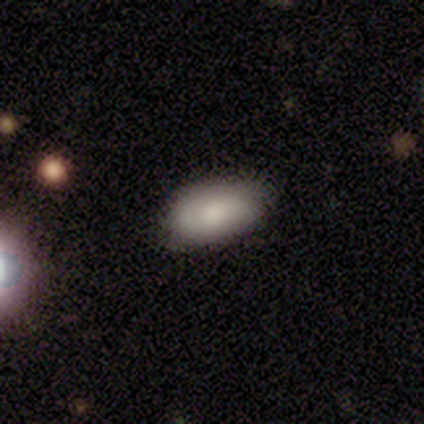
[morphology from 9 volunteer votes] Smooth or featured?
  - smooth: 78% *
  - featured or disk: 22%
  - star or artifact: 0%
How rounded?
  - in between: 86% *
  - cigar-shaped: 14%
  - round: 0%
Merging?
  - none: 67% *
  - minor disturbance: 33%
  - major disturbance: 0%
  - merger: 0%